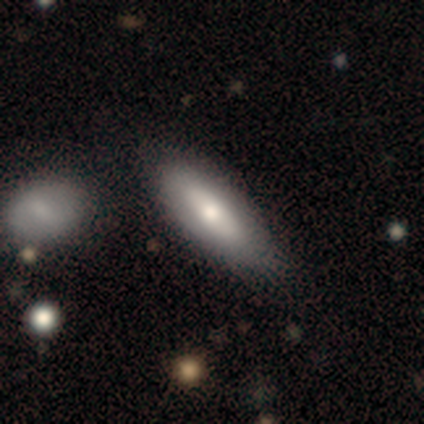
A featured or disk galaxy (57%) with no bar (100%), no spiral arms (100%) and a small central bulge (67%). Merging: none (71%).